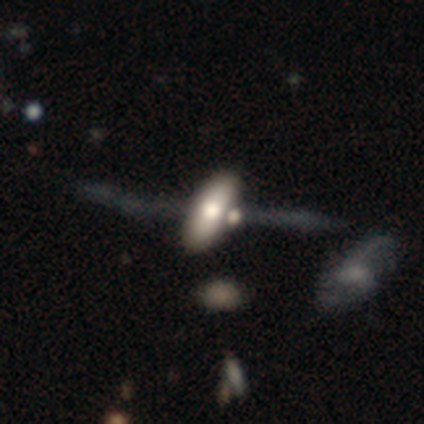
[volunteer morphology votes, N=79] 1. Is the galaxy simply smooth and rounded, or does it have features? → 56% smooth, 35% featured or disk, 9% star or artifact.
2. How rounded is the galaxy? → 95% in between, 2% round, 2% cigar-shaped.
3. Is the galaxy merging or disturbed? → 25% merger, 18% none, 12% minor disturbance, 6% major disturbance.